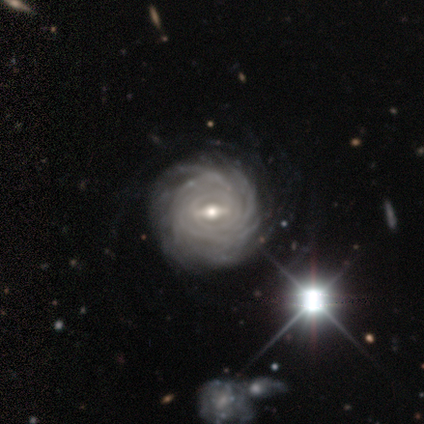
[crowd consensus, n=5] This appears to be a featured or disk galaxy (100%) with a weak bar (60%), more than 4 (60%) tight (100%) spiral arms (100%) and a small central bulge (60%). Merging: none (80%).